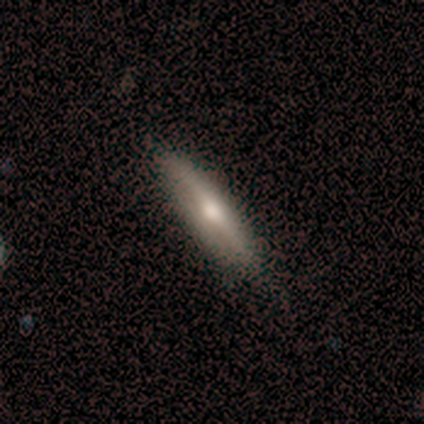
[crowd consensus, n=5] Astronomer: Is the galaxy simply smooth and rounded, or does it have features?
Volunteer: featured or disk — 80%.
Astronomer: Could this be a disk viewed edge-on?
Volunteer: yes — 100%.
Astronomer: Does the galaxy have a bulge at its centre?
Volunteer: rounded — 100%.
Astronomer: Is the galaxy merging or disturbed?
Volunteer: none — 80%.